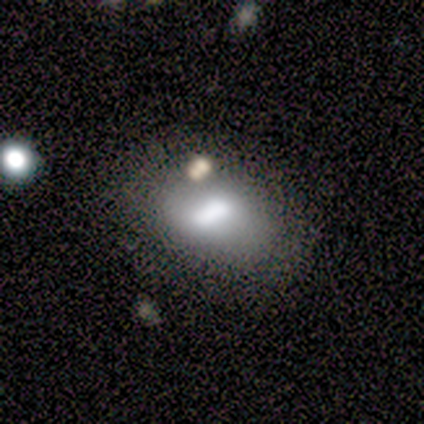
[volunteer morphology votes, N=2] A smooth galaxy with no disk features (50%, tied with featured or disk) that is cigar-shaped (100%).

Vote fractions:
- Smooth or featured? smooth: 50% (tied) / featured or disk: 50% (tied) / star or artifact: 0%
- How rounded? cigar-shaped: 100% / round: 0% / in between: 0%
- Merging? none: 100% / minor disturbance: 0% / major disturbance: 0% / merger: 0%